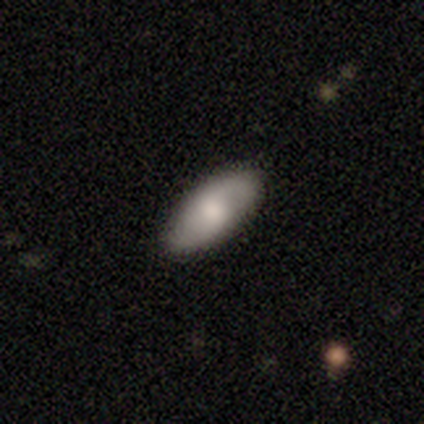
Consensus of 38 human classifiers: smooth_or_featured: smooth (p=0.68) [alt: featured or disk p=0.26]
how_rounded: in between (p=0.92) [alt: cigar-shaped p=0.08]
merging: none (p=0.83) [alt: minor disturbance p=0.14]